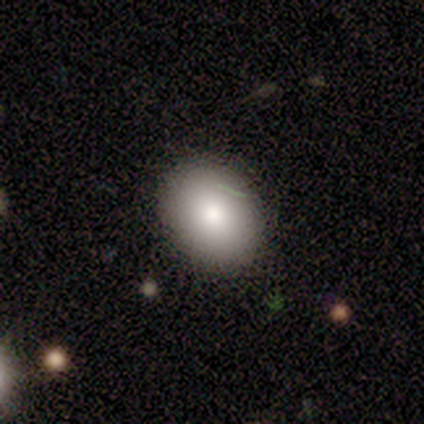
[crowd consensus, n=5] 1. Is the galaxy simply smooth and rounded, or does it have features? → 100% smooth, 0% featured or disk, 0% star or artifact.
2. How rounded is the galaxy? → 60% round, 40% in between, 0% cigar-shaped.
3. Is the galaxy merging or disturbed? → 100% none, 0% minor disturbance, 0% major disturbance, 0% merger.